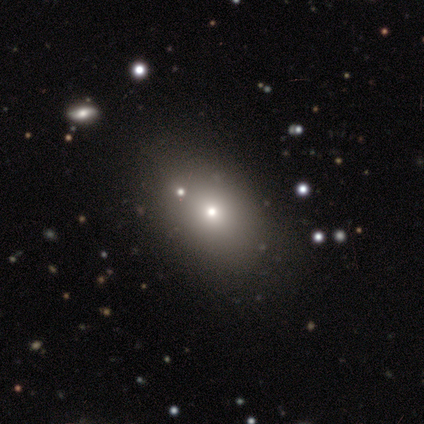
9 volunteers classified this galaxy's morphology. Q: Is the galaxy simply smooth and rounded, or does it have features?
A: smooth — 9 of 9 (100%).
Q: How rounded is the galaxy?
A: in between — 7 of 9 (78%).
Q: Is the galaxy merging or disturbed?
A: none — 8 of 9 (89%).